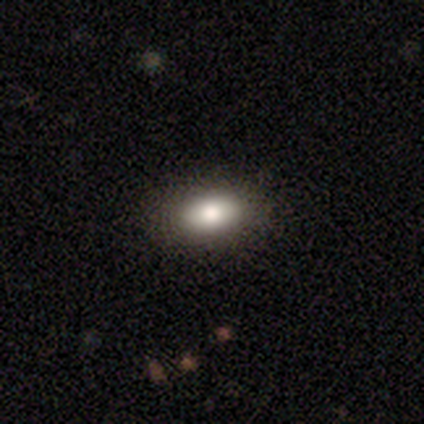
Smooth or featured: smooth — 100%
How rounded: in between — 60% (cigar-shaped — 40%)
Merging: none — 60% (minor disturbance — 20%)